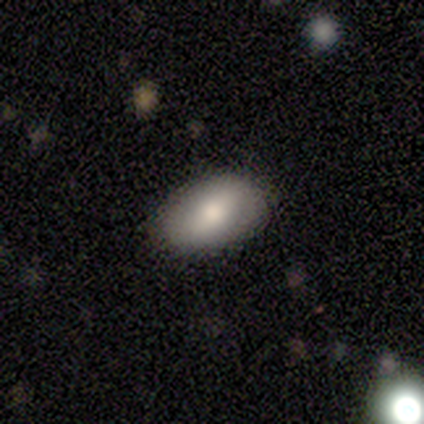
Smooth or featured? 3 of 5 (60%) said smooth. How rounded? 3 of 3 (100%) said in between. Merging? 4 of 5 (80%) said none.